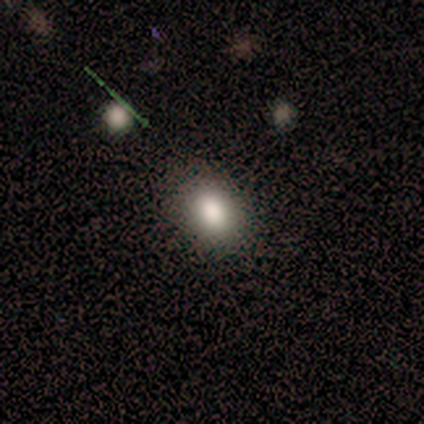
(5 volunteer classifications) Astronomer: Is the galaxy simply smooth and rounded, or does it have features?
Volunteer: smooth — 100%.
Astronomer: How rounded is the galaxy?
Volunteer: in between — 80%.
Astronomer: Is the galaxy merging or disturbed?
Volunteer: none — 80%.